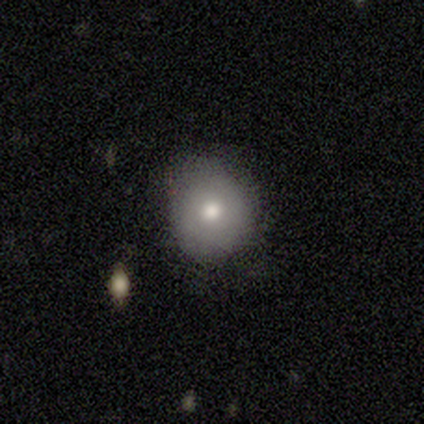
Q: Smooth or featured?
A: smooth (75%); runner-up: featured or disk (25%)
Q: How rounded?
A: round (100%)
Q: Merging?
A: none (100%)